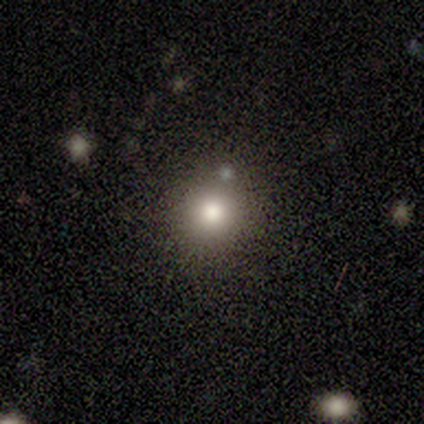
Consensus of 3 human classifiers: smooth 33% (tied), featured or disk 33% (tied), star or artifact 33% (tied). Down the decision tree: how rounded — round (100%); merging — none (100%).